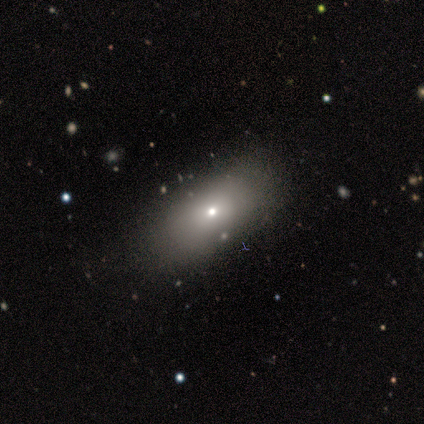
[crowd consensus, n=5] Smooth or featured?
  - star or artifact: 60% *
  - smooth: 20%
  - featured or disk: 20%